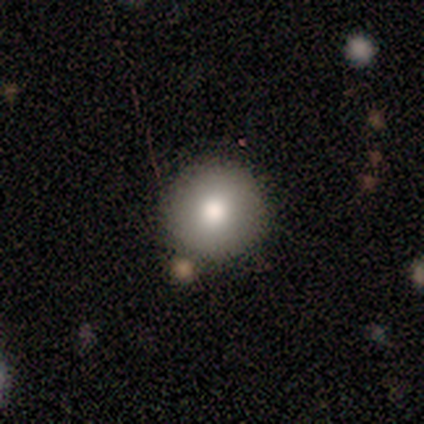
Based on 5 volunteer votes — Overall: smooth (100%). How rounded: round (100%). Merging: none (80%).